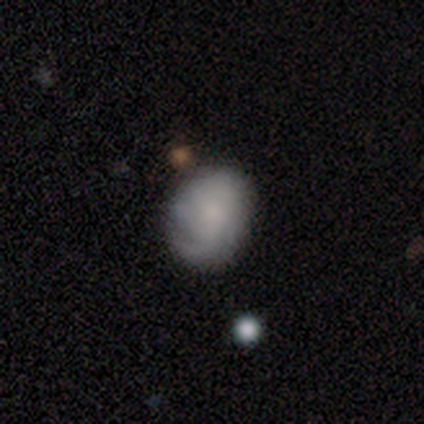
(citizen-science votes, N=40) This appears to be a featured or disk galaxy (50%) with no bar (85%), medium (47%) spiral arms (85%) and no central bulge (40%). Merging: none (46%).